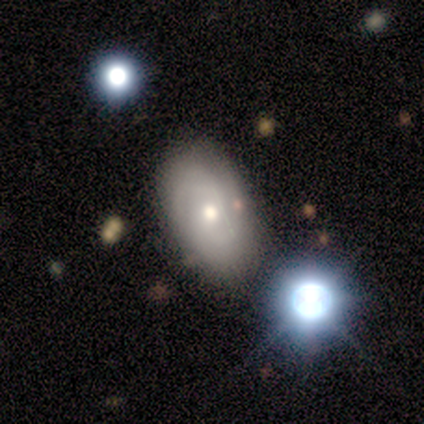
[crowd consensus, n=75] Volunteers were most divided on "spiral winding": medium: 50%, tight: 41%, loose: 9%. Remaining: edge-on disk — no (98%); bar — no (82%); spiral arms — yes (77%); bulge size — moderate (77%); merging — none (73%); smooth or featured — featured or disk (60%); spiral arm count — 2 (41%).